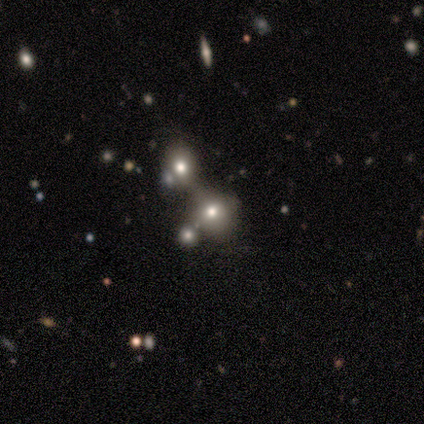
This is clearly a smooth galaxy (80%). How rounded: likely round (75%). Merging: likely merger (75%).